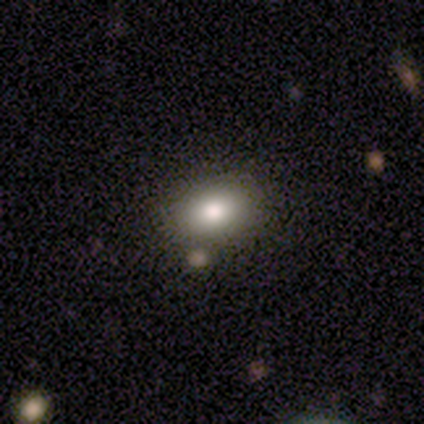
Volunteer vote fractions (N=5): Overall: smooth (60%; featured or disk 20%). How rounded: in between (100%). Merging: none (75%).